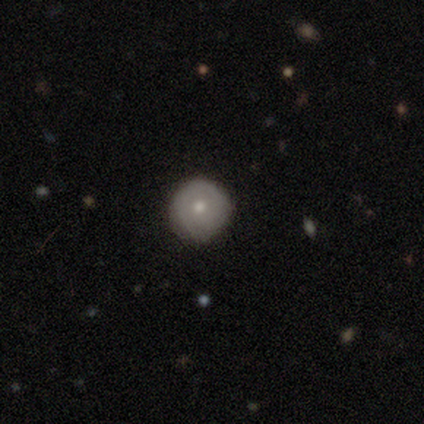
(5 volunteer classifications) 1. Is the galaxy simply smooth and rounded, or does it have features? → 60% smooth, 40% featured or disk, 0% star or artifact.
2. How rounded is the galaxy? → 100% round, 0% in between, 0% cigar-shaped.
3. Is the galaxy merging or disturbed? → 80% none, 20% minor disturbance, 0% major disturbance, 0% merger.